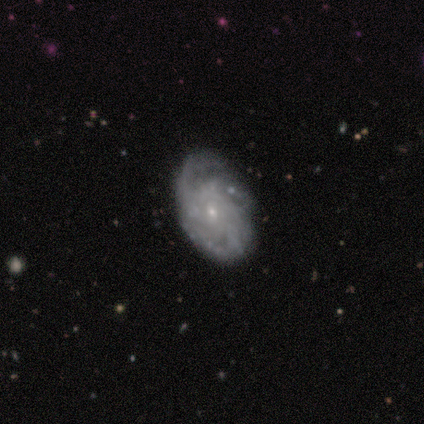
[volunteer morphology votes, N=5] Volunteers were most divided on "spiral winding" (2-way tie): tight: 50%, loose: 50%, medium: 0%; "spiral arm count" (2-way tie): 1: 50%, 2: 50%, 3: 0%, 4: 0%, more than 4: 0%, can't tell: 0%. More confident: edge-on disk — no (100%); bulge size — small (100%); bar — no (67%); spiral arms — yes (67%); smooth or featured — featured or disk (60%); merging — none (60%).